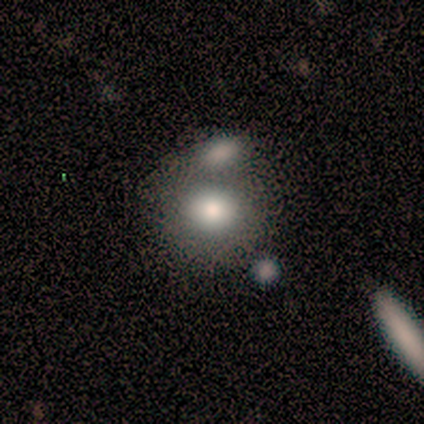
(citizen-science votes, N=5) Smooth or featured?
  - smooth: 40% * (tied)
  - star or artifact: 40% * (tied)
  - featured or disk: 20%
How rounded?
  - round: 50% * (tied)
  - in between: 50% * (tied)
  - cigar-shaped: 0%
Merging?
  - none: 67% *
  - merger: 33%
  - minor disturbance: 0%
  - major disturbance: 0%